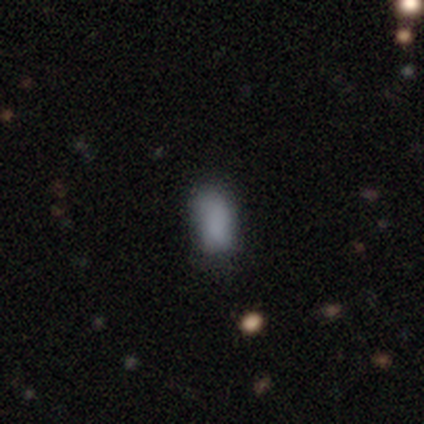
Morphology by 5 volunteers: type=smooth (100%); roundness=in between (100%); merging=minor disturbance (40%).